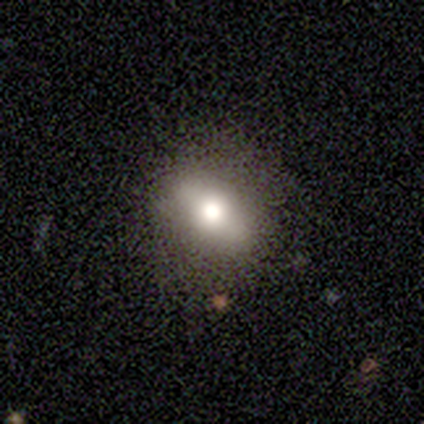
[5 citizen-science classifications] Volunteers were most divided on "how rounded": in between: 60%, round: 20%, cigar-shaped: 20%. More confident: smooth or featured — smooth (100%); merging — none (100%).